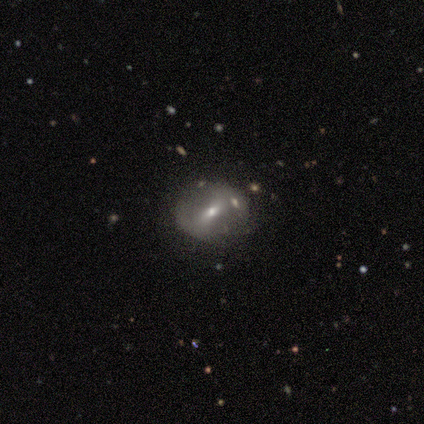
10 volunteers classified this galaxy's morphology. A featured or disk galaxy (70%) with a weak bar (57%), no spiral arms (71%) and a small central bulge (71%). Merging: none (80%).